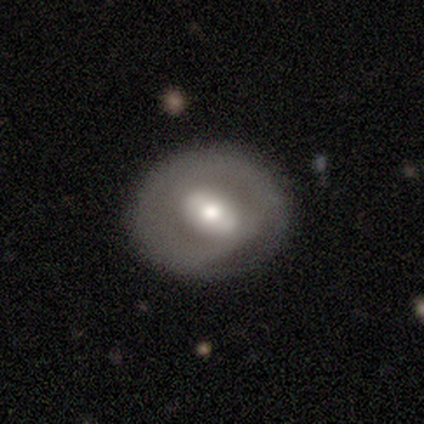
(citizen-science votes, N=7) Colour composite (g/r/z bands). It shows a smooth galaxy with no disk features (57%) that is round (50%, tied with in between). Merging: none (57%).